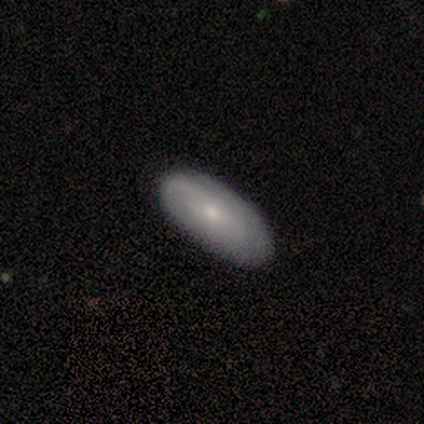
A smooth galaxy with no disk features (60%) that is in between round and cigar-shaped (100%).

Vote fractions:
- Smooth or featured? smooth: 60% / featured or disk: 40% / star or artifact: 0%
- How rounded? in between: 100% / round: 0% / cigar-shaped: 0%
- Merging? none: 100% / minor disturbance: 0% / major disturbance: 0% / merger: 0%